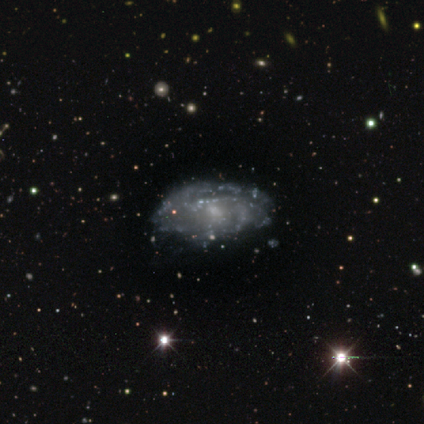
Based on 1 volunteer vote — smooth_or_featured: star or artifact (p=1.00)